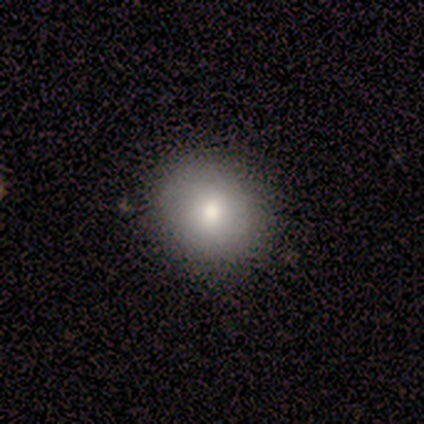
smooth-or-featured: smooth: 100% | featured or disk: 0% | star or artifact: 0%
  how-rounded: round: 100% | in between: 0% | cigar-shaped: 0%
  merging: none: 100% | minor disturbance: 0% | major disturbance: 0% | merger: 0%